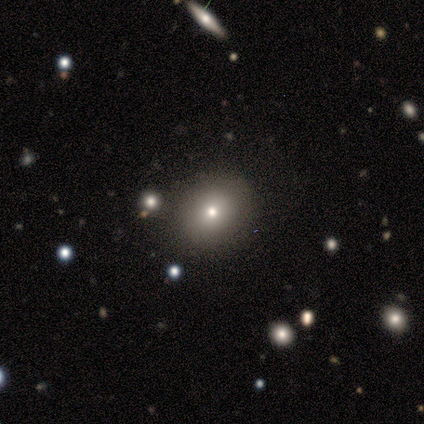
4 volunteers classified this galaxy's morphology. type=smooth (75%); roundness=in between (67%); merging=none (75%).